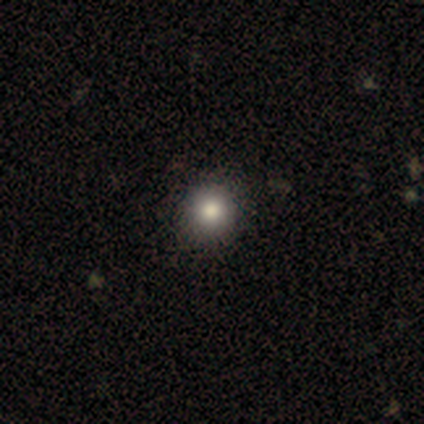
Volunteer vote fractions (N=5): Smooth or featured?
  - smooth: 80% *
  - featured or disk: 20%
  - star or artifact: 0%
How rounded?
  - round: 100% *
  - in between: 0%
  - cigar-shaped: 0%
Merging?
  - none: 100% *
  - minor disturbance: 0%
  - major disturbance: 0%
  - merger: 0%